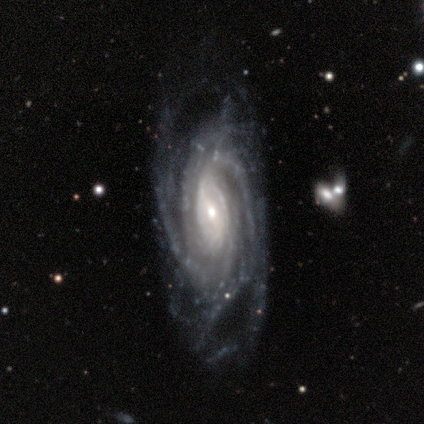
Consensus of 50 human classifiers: Smooth or featured? 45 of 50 (90%) said featured or disk. Edge-on disk? 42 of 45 (93%) said no. Bar? 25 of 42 (60%) said weak. Spiral arms? 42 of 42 (100%) said yes. Spiral winding? 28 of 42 (67%) said tight. Spiral arm count? 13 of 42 (31%) said more than 4. Bulge size? 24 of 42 (57%) said moderate. Merging? 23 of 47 (49%) said none.